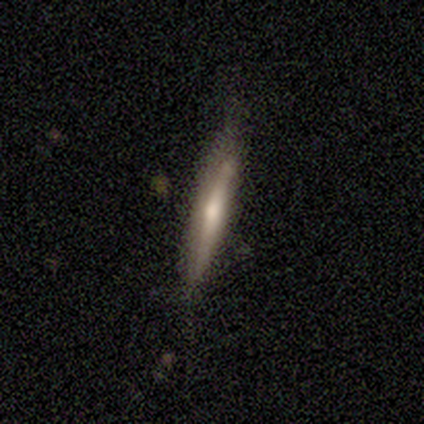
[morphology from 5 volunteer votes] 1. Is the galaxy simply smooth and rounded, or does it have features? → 60% featured or disk, 40% smooth, 0% star or artifact.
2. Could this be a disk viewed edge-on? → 100% yes, 0% no.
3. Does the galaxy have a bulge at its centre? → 100% rounded, 0% boxy, 0% none.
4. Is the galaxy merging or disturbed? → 80% none, 20% minor disturbance, 0% major disturbance, 0% merger.